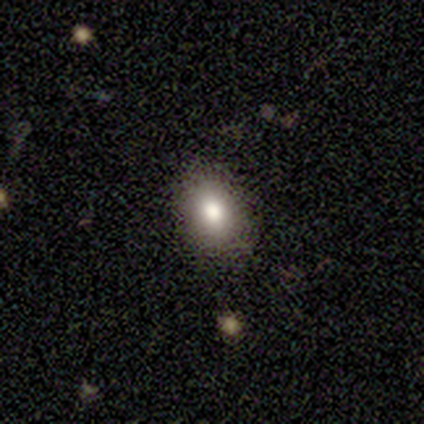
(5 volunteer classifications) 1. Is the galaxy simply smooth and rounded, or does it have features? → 100% smooth, 0% featured or disk, 0% star or artifact.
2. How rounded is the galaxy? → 100% in between, 0% round, 0% cigar-shaped.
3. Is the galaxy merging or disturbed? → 100% none, 0% minor disturbance, 0% major disturbance, 0% merger.